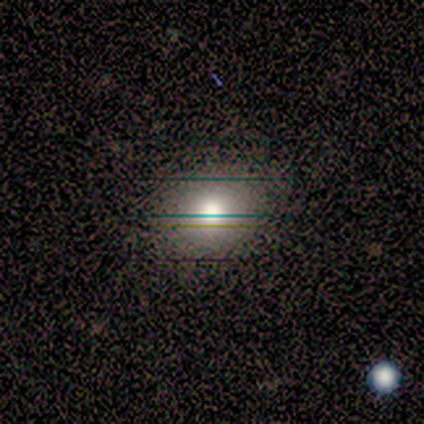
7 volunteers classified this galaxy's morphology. A smooth galaxy with no disk features (57%) that is round (50%, tied with in between). Merging: none (75%).